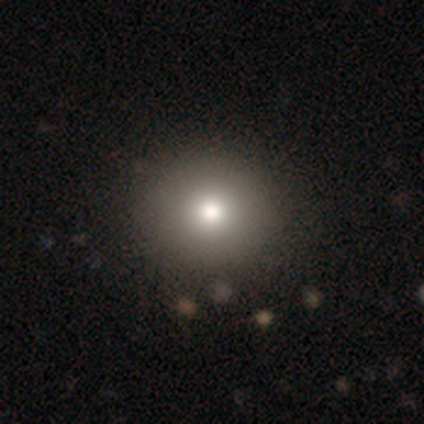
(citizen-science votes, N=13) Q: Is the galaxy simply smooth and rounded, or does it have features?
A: smooth — 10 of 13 (77%).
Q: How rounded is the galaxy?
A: round — 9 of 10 (90%).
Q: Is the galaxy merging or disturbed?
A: none — 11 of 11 (100%).